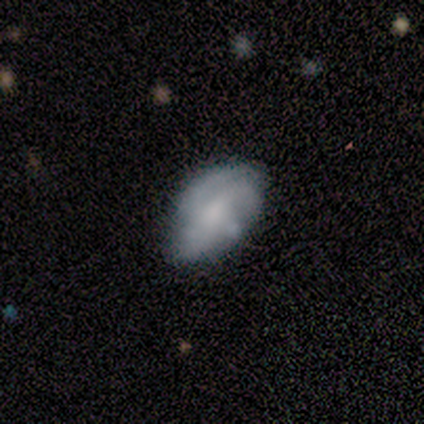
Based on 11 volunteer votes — A smooth galaxy with no disk features (55%) that is in between round and cigar-shaped (100%). Merging: none (55%).